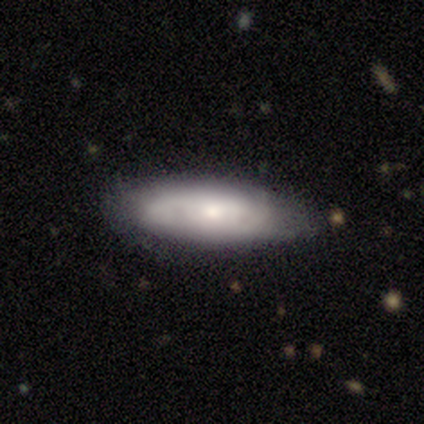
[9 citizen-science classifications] A smooth galaxy with no disk features (56%) that is in between round and cigar-shaped (60%).

Vote fractions:
- Smooth or featured? smooth: 56% / featured or disk: 33% / star or artifact: 11%
- How rounded? in between: 60% / cigar-shaped: 40% / round: 0%
- Merging? none: 50% / minor disturbance: 38% / major disturbance: 12% / merger: 0%